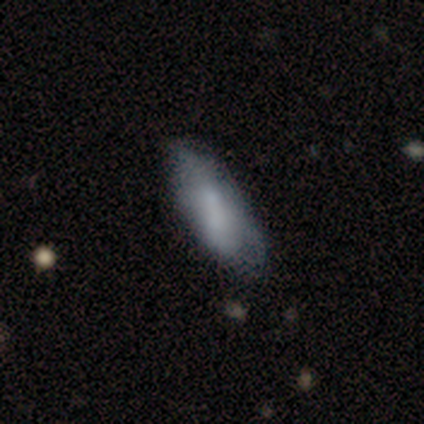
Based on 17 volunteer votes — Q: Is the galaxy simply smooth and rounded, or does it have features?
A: smooth — 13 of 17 (76%).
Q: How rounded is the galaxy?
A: in between — 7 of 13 (54%).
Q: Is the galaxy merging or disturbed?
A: none — 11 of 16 (69%).